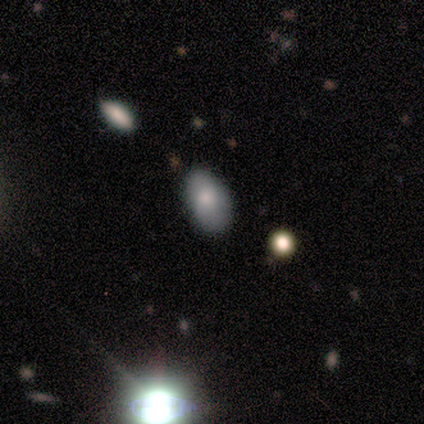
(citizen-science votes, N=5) A smooth galaxy with no disk features (80%) that is in between round and cigar-shaped (100%).

Vote fractions:
- Smooth or featured? smooth: 80% / star or artifact: 20% / featured or disk: 0%
- How rounded? in between: 100% / round: 0% / cigar-shaped: 0%
- Merging? none: 50% / minor disturbance: 25% / major disturbance: 25% / merger: 0%